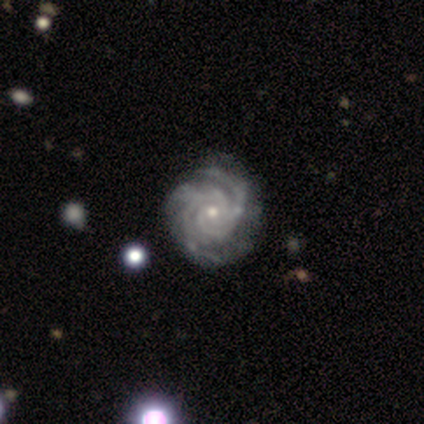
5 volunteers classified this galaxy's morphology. Smooth or featured?
  - featured or disk: 80% *
  - star or artifact: 20%
  - smooth: 0%
Edge-on disk?
  - no: 100% *
  - yes: 0%
Bar?
  - no: 100% *
  - strong: 0%
  - weak: 0%
Spiral arms?
  - yes: 100% *
  - no: 0%
Spiral winding?
  - tight: 100% *
  - medium: 0%
  - loose: 0%
Spiral arm count?
  - 3: 75% *
  - can't tell: 25%
  - 1: 0%
  - 2: 0%
  - 4: 0%
  - more than 4: 0%
Bulge size?
  - small: 75% *
  - moderate: 25%
  - dominant: 0%
  - large: 0%
  - none: 0%
Merging?
  - none: 50% * (tied)
  - minor disturbance: 50% * (tied)
  - major disturbance: 0%
  - merger: 0%